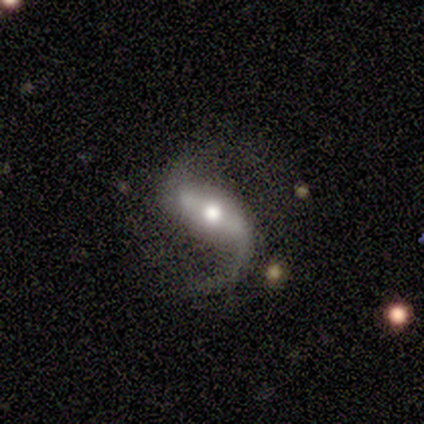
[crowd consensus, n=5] This appears to be a featured or disk galaxy (100%) with a strong bar (80%), 2 (100%) loose (80%) spiral arms (100%) and a moderate central bulge (80%). Merging: none (100%).